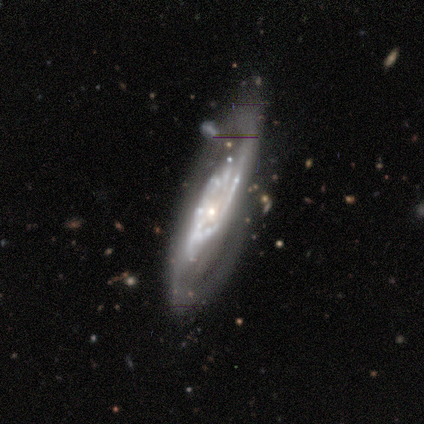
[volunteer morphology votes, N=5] Smooth or featured: featured or disk — 80% (smooth — 20%)
Edge-on disk: no — 100%
Bar: weak — 50% (strong — 25%)
Spiral arms: yes — 100%
Spiral winding: medium — 75% (tight — 25%)
Spiral arm count: 2 — 75% (can't tell — 25%)
Bulge size: small — 75% (large — 25%)
Merging: none — 60% (minor disturbance — 20%)